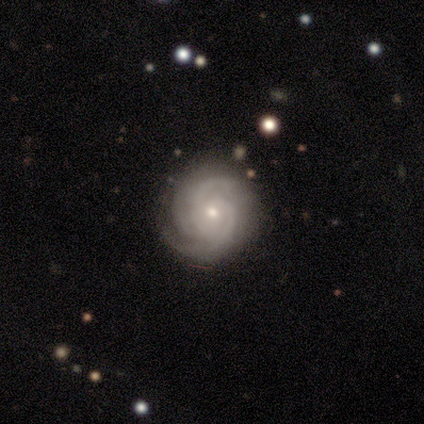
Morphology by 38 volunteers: Smooth or featured? featured or disk (89%)
Edge-on disk? no (94%)
Bar? no (72%)
Spiral arms? yes (100%)
Spiral winding? tight (72%)
Spiral arm count? 3 (47%)
Bulge size? small (56%)
Merging? none (70%)